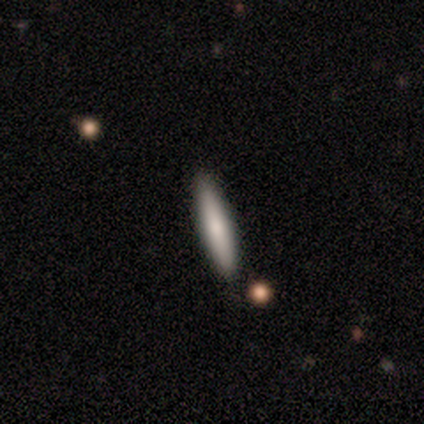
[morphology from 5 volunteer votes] smooth-or-featured: smooth: 80% | featured or disk: 20% | star or artifact: 0%
  how-rounded: cigar-shaped: 75% | in between: 25% | round: 0%
  merging: none: 100% | minor disturbance: 0% | major disturbance: 0% | merger: 0%